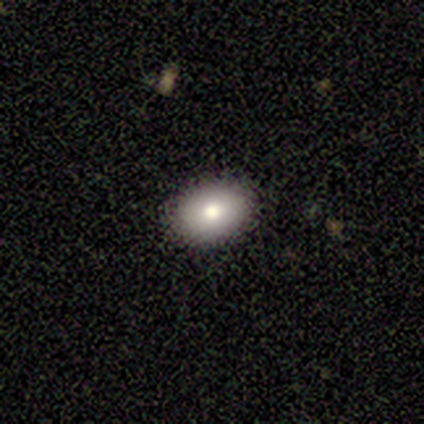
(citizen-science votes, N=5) Smooth or featured? smooth (80%)
How rounded? in between (75%)
Merging? none (100%)